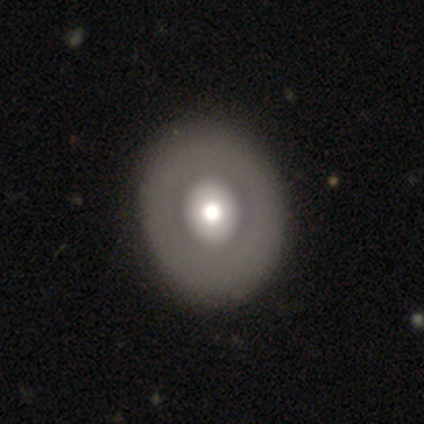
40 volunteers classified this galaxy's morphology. Smooth or featured: featured or disk — 60% (smooth — 40%)
Edge-on disk: no — 100%
Bar: no — 92% (weak — 8%)
Spiral arms: no — 100%
Bulge size: moderate — 62% (large — 25%)
Merging: none — 68%